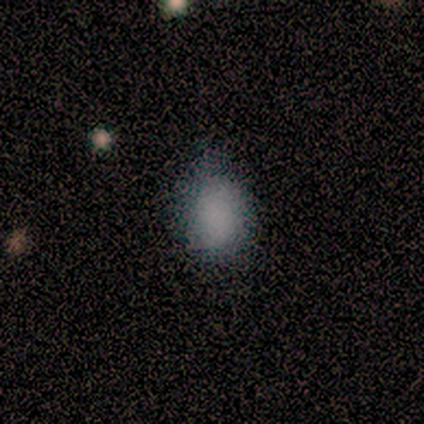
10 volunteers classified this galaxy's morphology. A smooth galaxy with no disk features (100%) that is in between round and cigar-shaped (80%). Merging: none (70%).